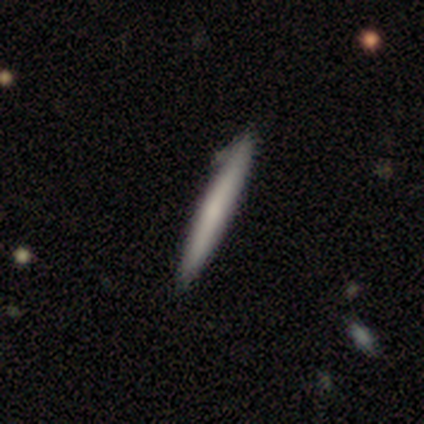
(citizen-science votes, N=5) smooth_or_featured: featured or disk (p=0.60) [alt: smooth p=0.40]
disk_edge_on: yes (p=1.00)
edge_on_bulge: none (p=1.00)
merging: none (p=1.00)